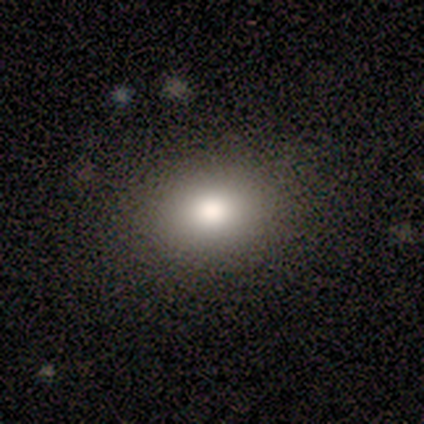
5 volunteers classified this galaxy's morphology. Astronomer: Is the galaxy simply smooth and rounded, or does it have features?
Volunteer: smooth — 80%.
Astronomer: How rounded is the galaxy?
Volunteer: in between — 75%.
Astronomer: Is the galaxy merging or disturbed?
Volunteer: none — 80%.